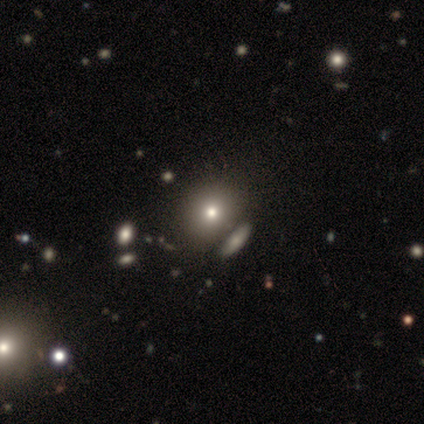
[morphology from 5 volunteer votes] Q: Smooth or featured?
A: smooth (60%); runner-up: featured or disk (40%)
Q: How rounded?
A: round (67%); runner-up: in between (33%)
Q: Merging?
A: none (60%); runner-up: minor disturbance (20%)